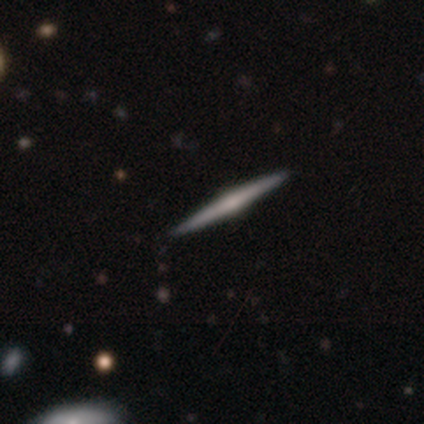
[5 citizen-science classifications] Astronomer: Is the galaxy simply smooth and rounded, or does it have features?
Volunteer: featured or disk — 80%.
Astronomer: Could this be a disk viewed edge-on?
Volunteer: yes — 100%.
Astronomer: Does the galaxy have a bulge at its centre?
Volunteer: rounded — 100%.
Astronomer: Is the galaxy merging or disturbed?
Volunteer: none — 100%.